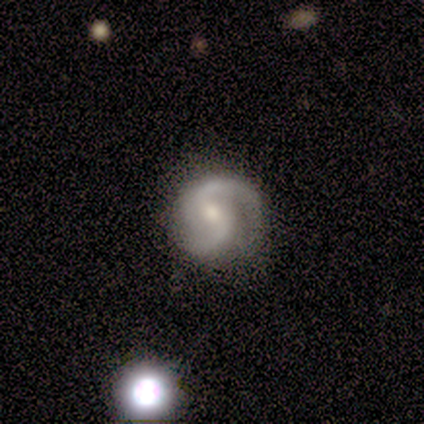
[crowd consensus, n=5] This appears to be a featured or disk galaxy (100%) with a weak bar (60%), 2 (100%) tight (60%) spiral arms (100%) and a small central bulge (60%). Merging: none (100%).